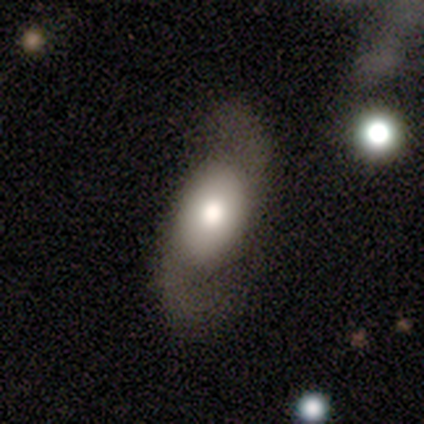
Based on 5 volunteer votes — Smooth or featured: featured or disk — 60% (smooth — 40%)
Edge-on disk: no — 100%
Bar: no — 67% (strong — 33%)
Spiral arms: yes — 100%
Spiral winding: medium — 67% (loose — 33%)
Spiral arm count: 2 — 100%
Bulge size: large — 67% (dominant — 33%)
Merging: none — 100%